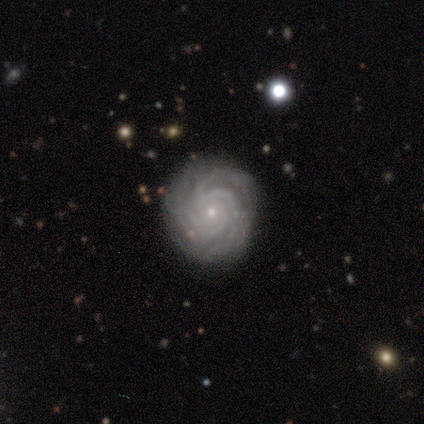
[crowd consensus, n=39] Smooth or featured? 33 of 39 (85%) said featured or disk. Edge-on disk? 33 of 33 (100%) said no. Bar? 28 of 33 (85%) said no. Spiral arms? 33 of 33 (100%) said yes. Spiral winding? 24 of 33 (73%) said tight. Spiral arm count? 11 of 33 (33%) said 3. Bulge size? 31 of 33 (94%) said small. Merging? 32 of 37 (86%) said none.